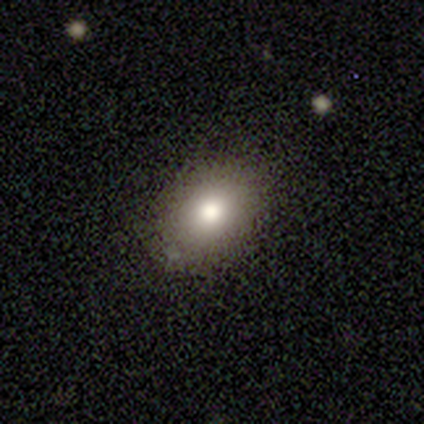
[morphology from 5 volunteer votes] smooth_or_featured: smooth (p=0.80) [alt: featured or disk p=0.20]
how_rounded: in between (p=0.75) [alt: round p=0.25]
merging: none (p=0.60) [alt: minor disturbance p=0.40]